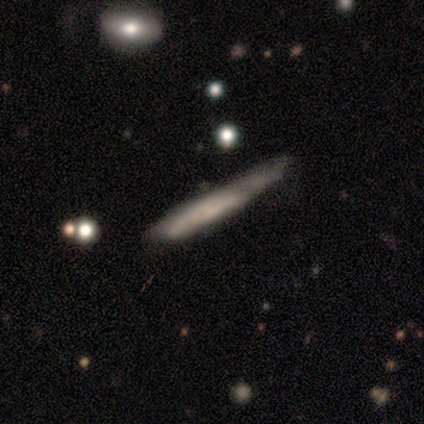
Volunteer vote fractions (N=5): Smooth or featured?
  - featured or disk: 60% *
  - smooth: 40%
  - star or artifact: 0%
Edge-on disk?
  - yes: 67% *
  - no: 33%
Edge-on bulge?
  - none: 50% * (tied)
  - rounded: 50% * (tied)
  - boxy: 0%
Merging?
  - minor disturbance: 60% *
  - none: 20%
  - merger: 20%
  - major disturbance: 0%